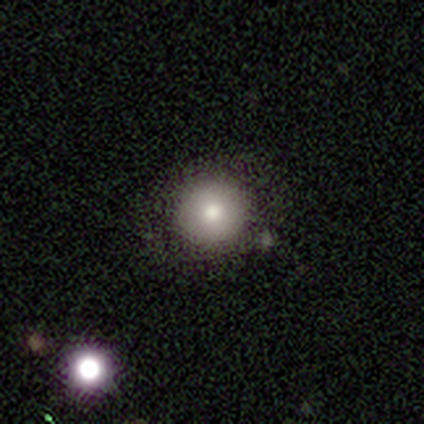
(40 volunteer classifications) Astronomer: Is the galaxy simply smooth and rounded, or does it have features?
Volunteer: smooth — 78%.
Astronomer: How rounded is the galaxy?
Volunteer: round — 94%.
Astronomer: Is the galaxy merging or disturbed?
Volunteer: none — 89%.